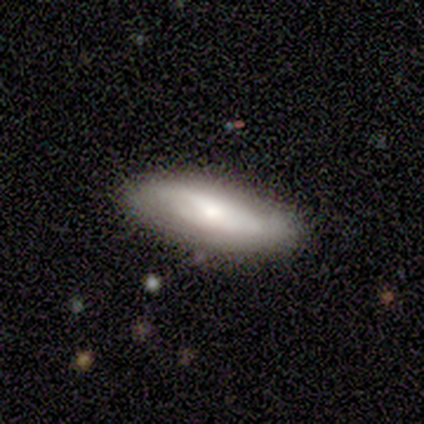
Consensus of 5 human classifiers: smooth 60%, featured or disk 40%, star or artifact 0%. Down the decision tree: how rounded — in between (67%); merging — none (100%).